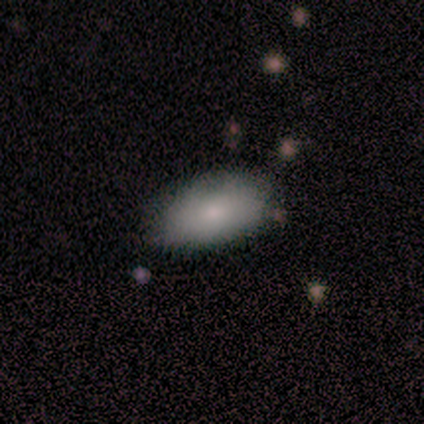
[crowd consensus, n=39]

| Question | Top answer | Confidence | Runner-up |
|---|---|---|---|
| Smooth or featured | smooth | 82% | featured or disk (15%) |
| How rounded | in between | 97% | cigar-shaped (3%) |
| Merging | none | 76% | minor disturbance (18%) |